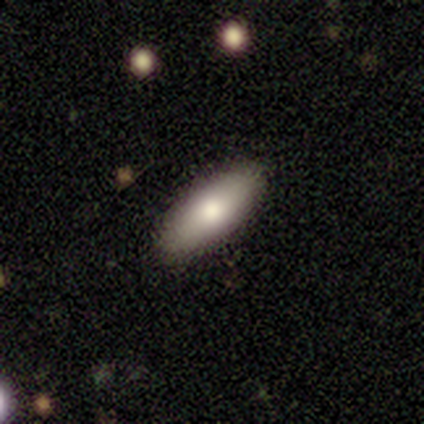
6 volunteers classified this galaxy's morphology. This appears to be a smooth galaxy with no disk features (50%) that is in between round and cigar-shaped (100%). Merging: none (100%).